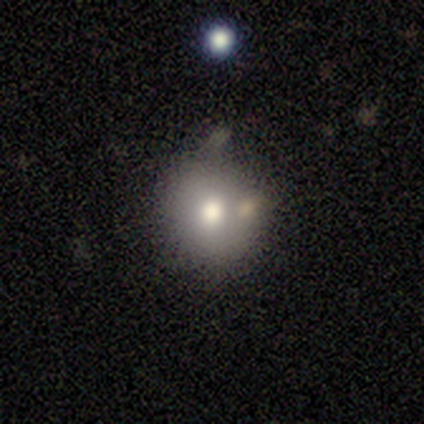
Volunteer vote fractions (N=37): Smooth or featured? smooth (70%)
How rounded? round (100%)
Merging? none (67%)